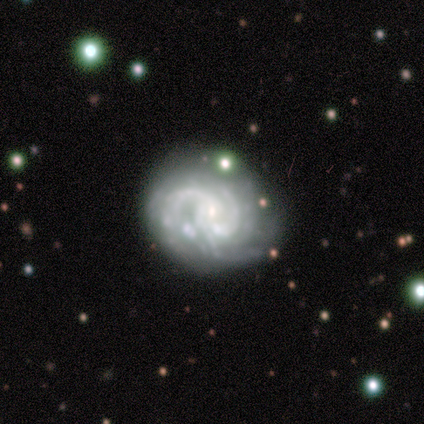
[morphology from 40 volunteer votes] type=featured or disk (88%); edge-on=no (100%); bar=no (60%); spiral arms=yes (100%); winding=tight (54%); arm count=3 (51%); bulge=small (77%); merging=none (51%).